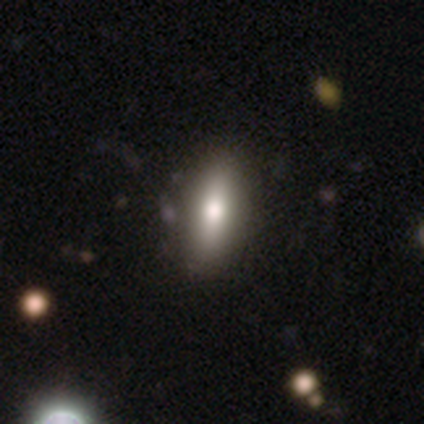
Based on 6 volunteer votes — This is clearly a smooth galaxy (83%). How rounded: likely in between (60%). Merging: clearly none (83%).